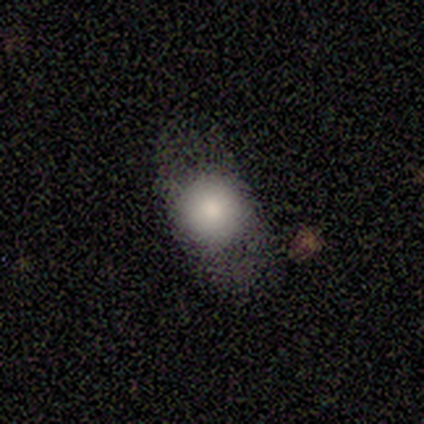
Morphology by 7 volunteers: Smooth or featured? smooth (86%)
How rounded? round (83%)
Merging? minor disturbance (43%)